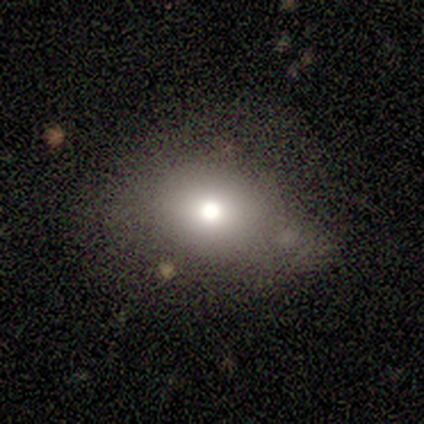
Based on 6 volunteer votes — smooth 67%, featured or disk 33%, star or artifact 0%. Down the decision tree: how rounded — in between (75%); merging — minor disturbance (50%).